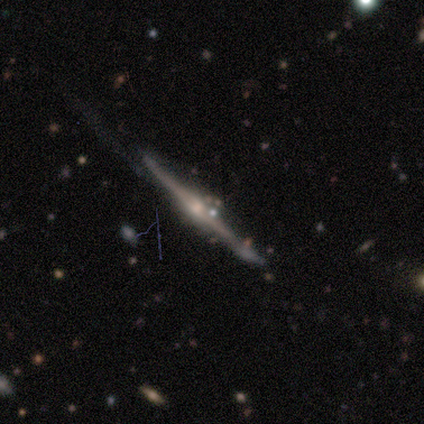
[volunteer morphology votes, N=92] A featured or disk galaxy (88%) viewed edge-on (96%) with a rounded central bulge (90%).

Vote fractions:
- Smooth or featured? featured or disk: 88% / star or artifact: 7% / smooth: 5%
- Edge-on disk? yes: 96% / no: 4%
- Edge-on bulge? rounded: 90% / none: 8% / boxy: 3%
- Merging? none: 58% / minor disturbance: 28% / major disturbance: 10% / merger: 3%